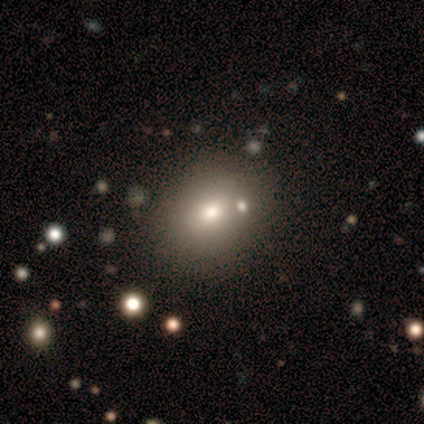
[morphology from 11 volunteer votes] Smooth or featured?
  - smooth: 73% *
  - featured or disk: 18%
  - star or artifact: 9%
How rounded?
  - round: 62% *
  - in between: 38%
  - cigar-shaped: 0%
Merging?
  - none: 70% *
  - merger: 20%
  - major disturbance: 10%
  - minor disturbance: 0%